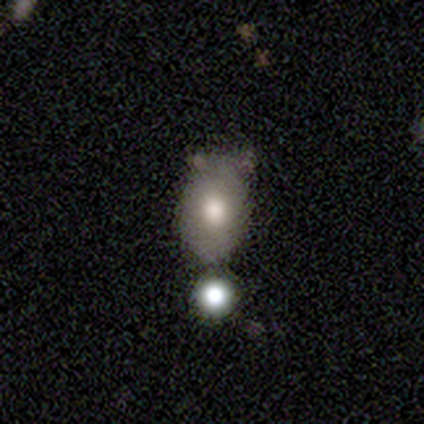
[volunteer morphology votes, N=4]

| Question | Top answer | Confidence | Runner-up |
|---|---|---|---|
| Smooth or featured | smooth | 100% | — |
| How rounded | in between | 75% | round (25%) |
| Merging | none | 50% | tied: minor disturbance (50%) |